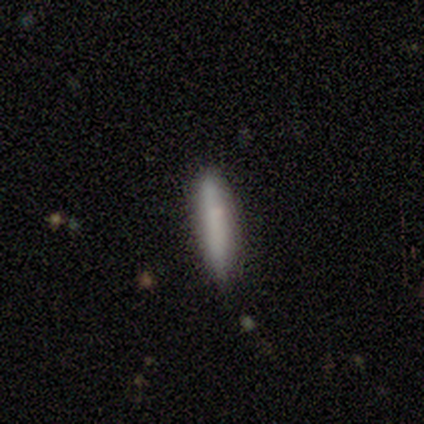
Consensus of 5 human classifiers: Q: Smooth or featured?
A: smooth (80%); runner-up: featured or disk (20%)
Q: How rounded?
A: cigar-shaped (100%)
Q: Merging?
A: none (100%)